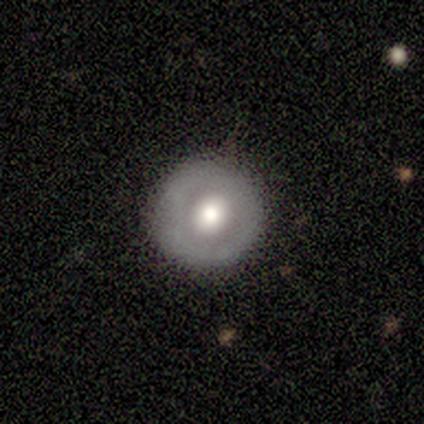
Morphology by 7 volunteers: This appears to be a smooth galaxy with no disk features (57%) that is round (100%). Merging: none (83%).